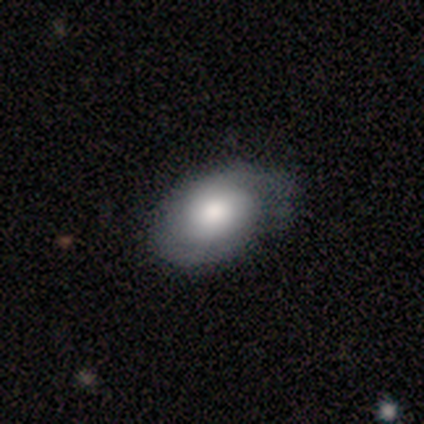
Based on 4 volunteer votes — Smooth or featured: smooth — 50% (tied with featured or disk — 50%)
How rounded: in between — 100%
Merging: none — 75% (minor disturbance — 25%)